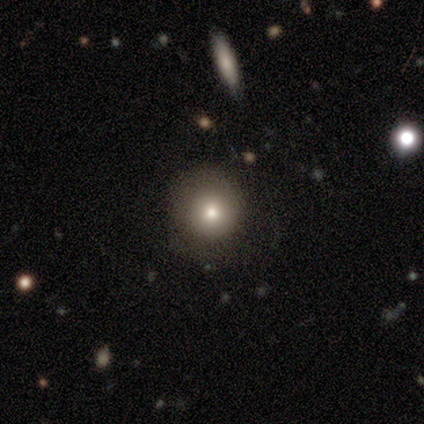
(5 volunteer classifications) smooth 80%, featured or disk 20%, star or artifact 0%. Down the decision tree: how rounded — round (100%); merging — none (80%).